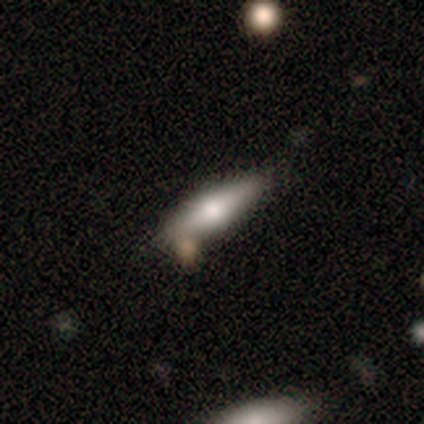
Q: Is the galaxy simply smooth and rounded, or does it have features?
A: smooth — 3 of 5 (60%).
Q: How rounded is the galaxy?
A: cigar-shaped — 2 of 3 (67%).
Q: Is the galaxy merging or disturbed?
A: none — 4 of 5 (80%).